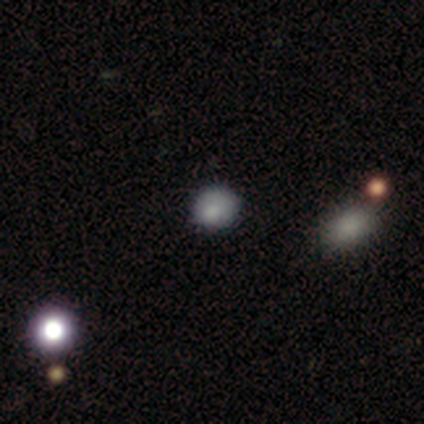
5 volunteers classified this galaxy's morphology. Overall: smooth (60%; featured or disk 40%). How rounded: in between (67%; round 33%). Merging: none (60%; minor disturbance 20%).